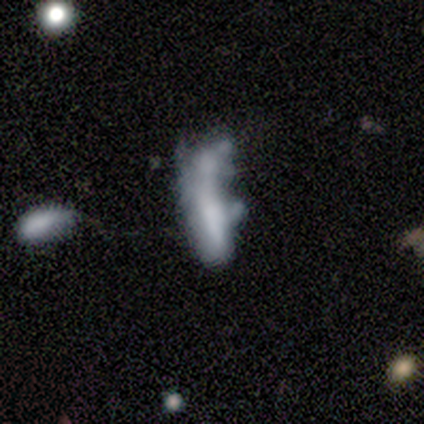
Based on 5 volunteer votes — smooth_or_featured: smooth (p=0.60) [alt: featured or disk p=0.20]
how_rounded: in between (p=0.67) [alt: cigar-shaped p=0.33]
merging: major disturbance (p=0.50) [tied with: merger p=0.50]